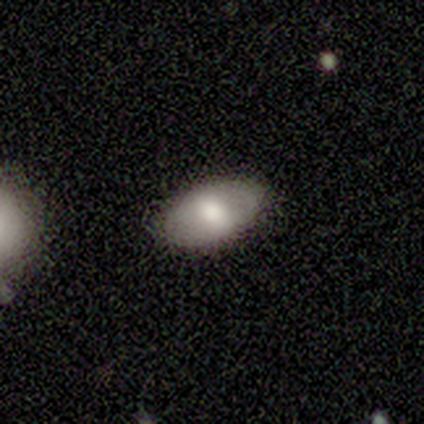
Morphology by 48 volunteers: smooth-or-featured: smooth: 67% | featured or disk: 31% | star or artifact: 2%
  how-rounded: in between: 97% | cigar-shaped: 3% | round: 0%
  merging: none: 87% | minor disturbance: 11% | major disturbance: 2% | merger: 0%